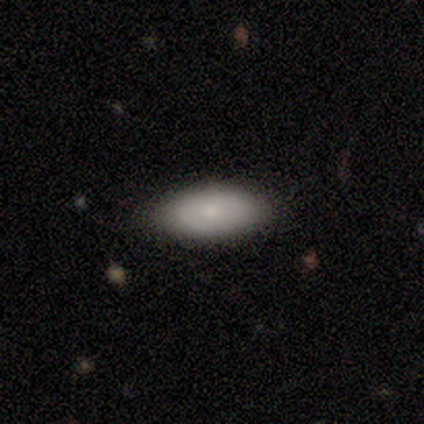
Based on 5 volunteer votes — Morphology: type=smooth (80%); roundness=in between (100%); merging=none (100%).